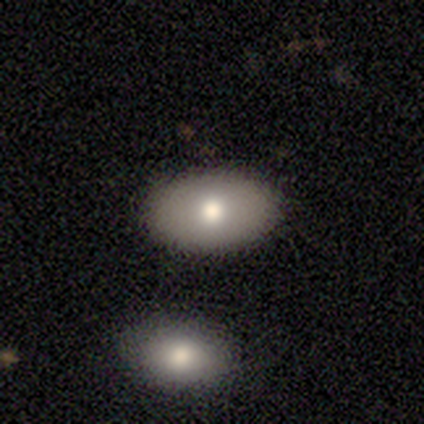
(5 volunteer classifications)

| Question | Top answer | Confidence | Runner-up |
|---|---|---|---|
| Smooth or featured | smooth | 100% | — |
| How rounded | in between | 80% | round (20%) |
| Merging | none | 80% | merger (20%) |